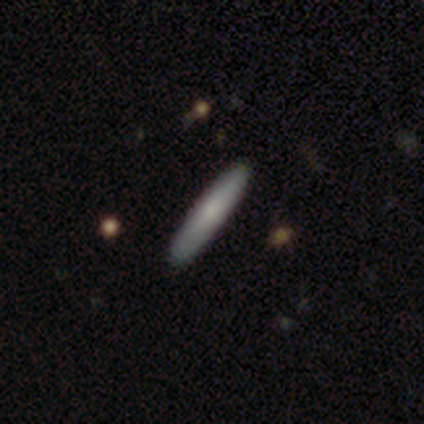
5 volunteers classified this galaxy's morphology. Overall: smooth (60%; featured or disk 20%). How rounded: cigar-shaped (100%). Merging: none (100%).